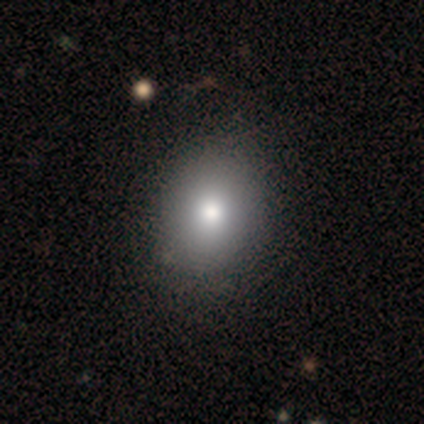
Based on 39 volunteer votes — Smooth or featured? smooth (85%)
How rounded? round (52%)
Merging? none (58%)